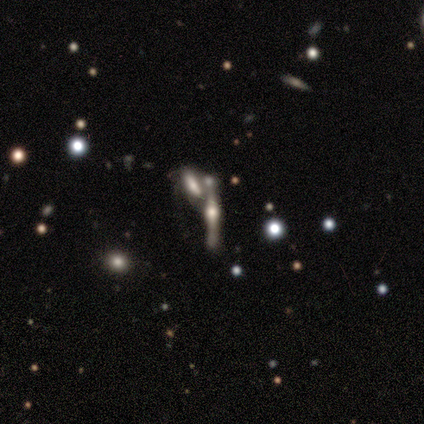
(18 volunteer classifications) Smooth or featured? 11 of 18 (61%) said featured or disk. Edge-on disk? 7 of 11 (64%) said yes. Edge-on bulge? 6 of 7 (86%) said rounded. Merging? 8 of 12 (67%) said merger.